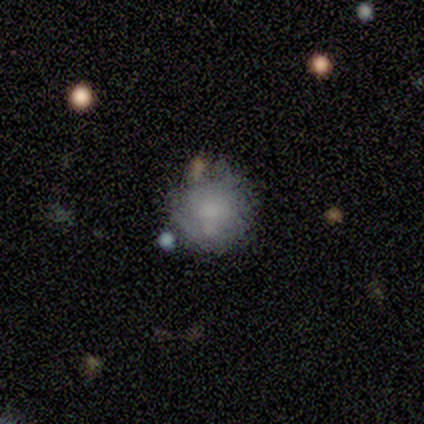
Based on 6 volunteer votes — smooth-or-featured: smooth: 67% | featured or disk: 17% | star or artifact: 17%
  how-rounded: round: 100% | in between: 0% | cigar-shaped: 0%
  merging: none: 60% | minor disturbance: 20% | major disturbance: 20% | merger: 0%